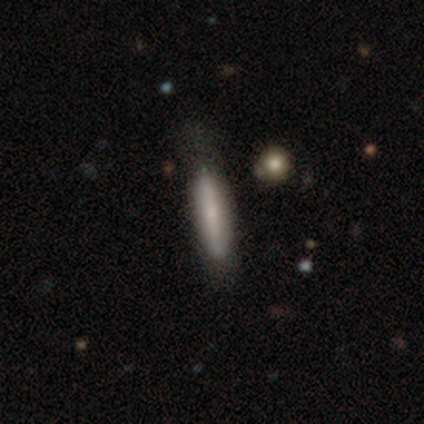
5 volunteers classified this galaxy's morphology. Smooth or featured?
  - featured or disk: 60% *
  - smooth: 40%
  - star or artifact: 0%
Edge-on disk?
  - yes: 67% *
  - no: 33%
Edge-on bulge?
  - none: 100% *
  - boxy: 0%
  - rounded: 0%
Merging?
  - none: 40% * (tied)
  - minor disturbance: 40% * (tied)
  - major disturbance: 20%
  - merger: 0%